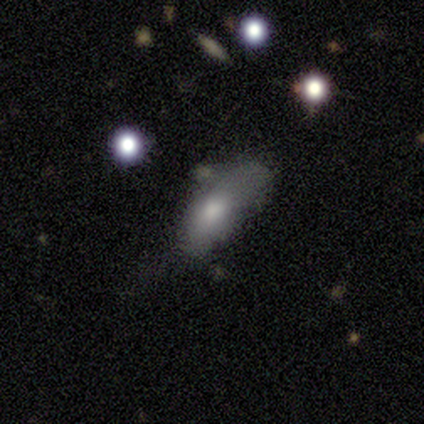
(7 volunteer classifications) This is likely a smooth galaxy (71%). How rounded: clearly in between (100%). Merging: possibly none (50%).